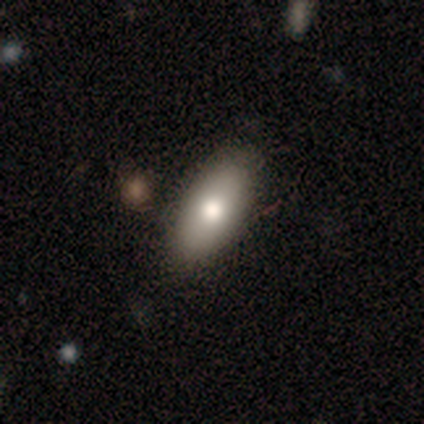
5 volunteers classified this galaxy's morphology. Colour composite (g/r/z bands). It shows a smooth galaxy with no disk features (80%) that is in between round and cigar-shaped (75%). Merging: none (60%).